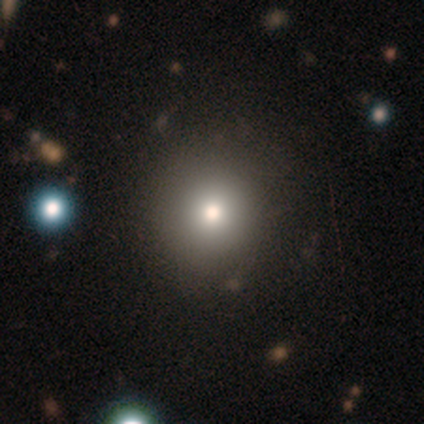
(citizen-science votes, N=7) smooth 71%, featured or disk 14%, star or artifact 14%. Down the decision tree: how rounded — round (80%); merging — none (100%).